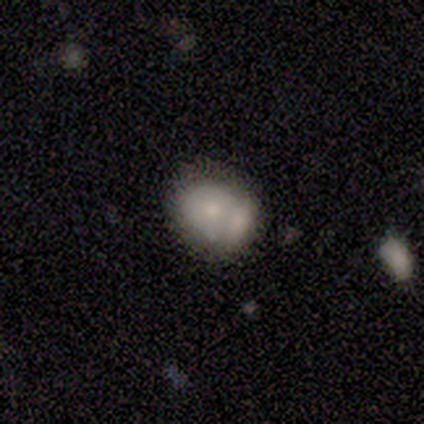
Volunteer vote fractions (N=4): Morphology: type=smooth (75%); roundness=round (67%); merging=merger (100%).